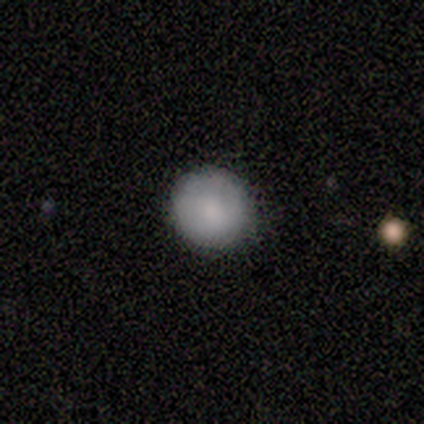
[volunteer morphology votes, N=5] Smooth or featured: smooth — 80% (featured or disk — 20%)
How rounded: round — 100%
Merging: none — 100%